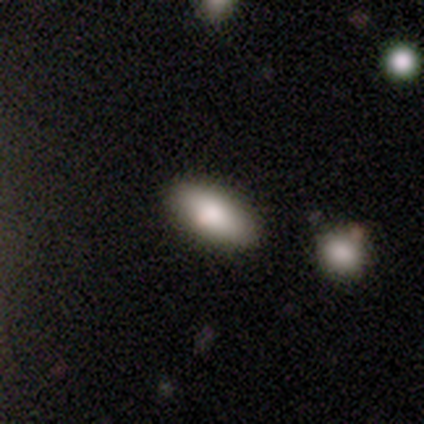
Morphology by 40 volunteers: This is clearly a smooth galaxy (90%). How rounded: likely in between (72%). Merging: clearly none (92%).